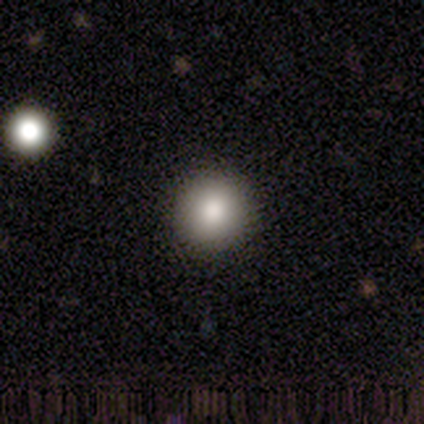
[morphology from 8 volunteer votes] This is clearly a smooth galaxy (88%). How rounded: clearly round (86%). Merging: possibly none (57%).